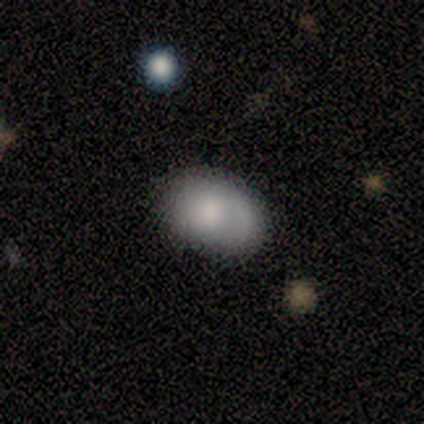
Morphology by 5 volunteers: A smooth galaxy with no disk features (80%) that is in between round and cigar-shaped (75%). Merging: none (80%).